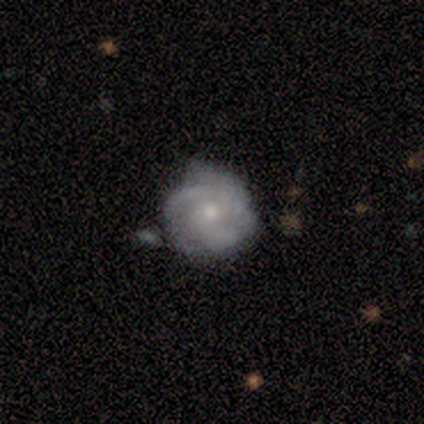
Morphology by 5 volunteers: A featured or disk galaxy (60%) with a weak bar (67%), 3 (67%) medium (67%) spiral arms (100%) and a small central bulge (67%).

Vote fractions:
- Smooth or featured? featured or disk: 60% / smooth: 20% / star or artifact: 20%
- Edge-on disk? no: 100% / yes: 0%
- Bar? weak: 67% / no: 33% / strong: 0%
- Spiral arms? yes: 100% / no: 0%
- Spiral winding? medium: 67% / loose: 33% / tight: 0%
- Spiral arm count? 3: 67% / 2: 33% / 1: 0% / 4: 0% / more than 4: 0% / can't tell: 0%
- Bulge size? small: 67% / moderate: 33% / dominant: 0% / large: 0% / none: 0%
- Merging? minor disturbance: 75% / major disturbance: 25% / none: 0% / merger: 0%